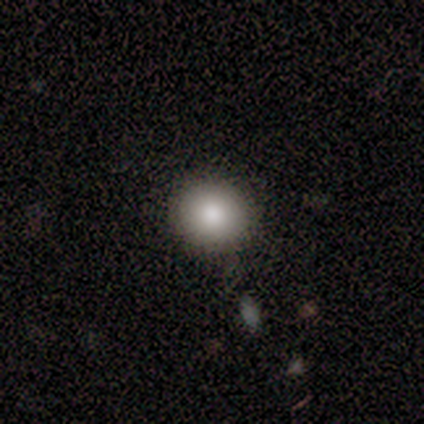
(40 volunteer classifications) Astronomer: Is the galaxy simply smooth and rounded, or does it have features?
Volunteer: smooth — 88%.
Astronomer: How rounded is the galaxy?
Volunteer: round — 91%.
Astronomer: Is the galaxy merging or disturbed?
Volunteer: none — 95%.